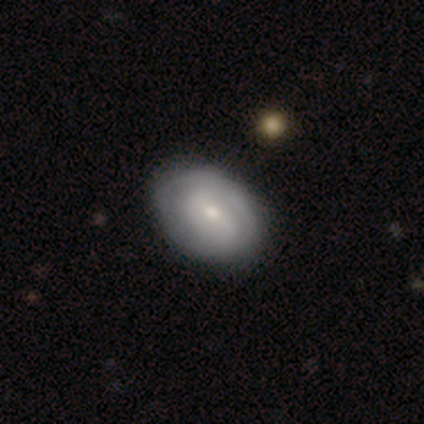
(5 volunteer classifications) featured or disk 60%, smooth 40%, star or artifact 0%. Down the decision tree: edge-on disk — no (100%); bar — strong (67%); spiral arms — yes (67%); spiral arm count — 2 (100%); spiral winding — tight (100%); bulge size — moderate (100%); merging — none (100%).